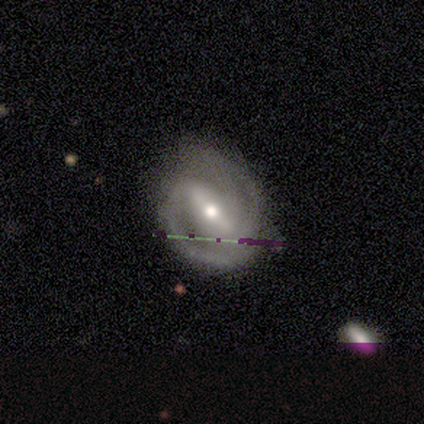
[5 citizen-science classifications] smooth_or_featured: smooth (p=0.40) [tied with: featured or disk p=0.40]
how_rounded: round (p=0.50) [tied with: in between p=0.50]
merging: none (p=0.75) [alt: minor disturbance p=0.25]